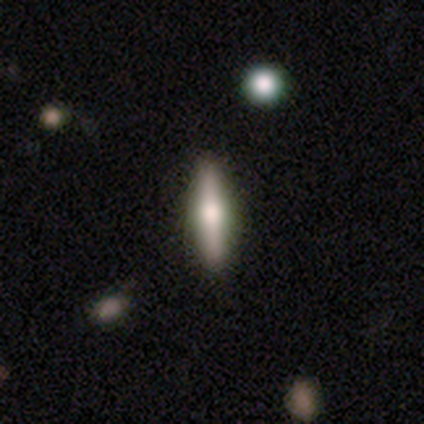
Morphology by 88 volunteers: type=smooth (47%, tied with featured or disk); roundness=cigar-shaped (90%); merging=none (88%).